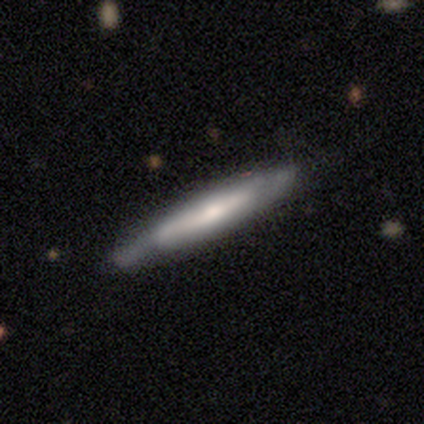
This is possibly a featured or disk galaxy (46%). It is clearly viewed edge-on (83%). Edge-on bulge: likely rounded (67%). Merging: possibly none (57%).